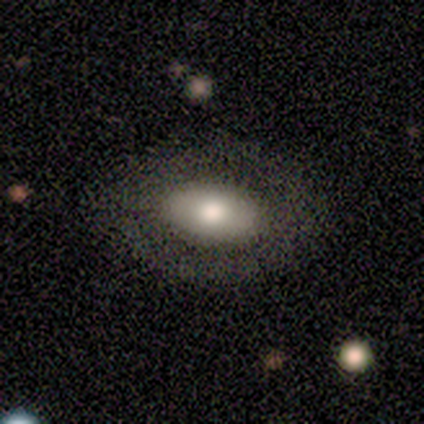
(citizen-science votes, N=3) Smooth or featured: smooth — 100%
How rounded: in between — 100%
Merging: none — 100%